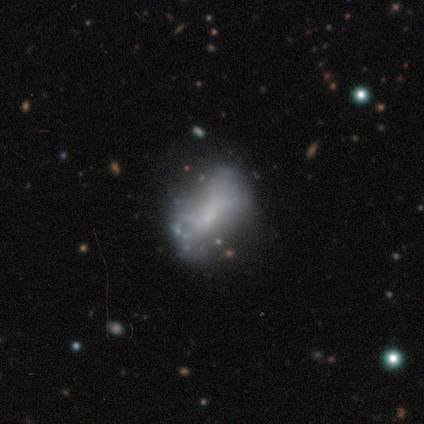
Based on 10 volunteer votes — This appears to be a smooth galaxy with no disk features (50%) that is in between round and cigar-shaped (80%). Merging: none (33%, tied with minor disturbance and major disturbance).